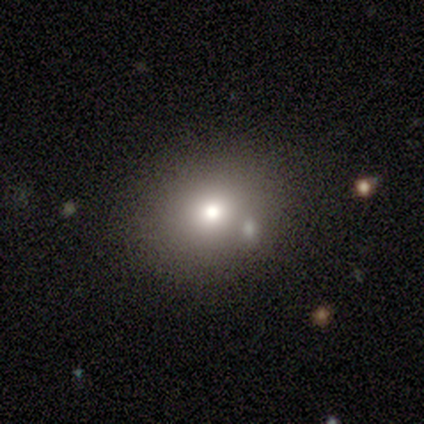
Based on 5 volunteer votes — Volunteers were most divided on "merging": none: 60%, major disturbance: 20%, merger: 20%, minor disturbance: 0%. More confident: smooth or featured — smooth (80%); how rounded — round (75%).